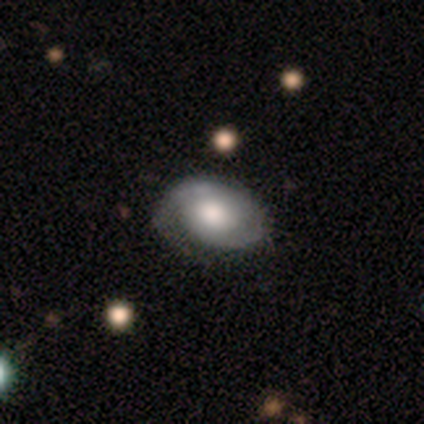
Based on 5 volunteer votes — A featured or disk galaxy (60%) with no bar (67%), tight (67%) spiral arms (100%) and a large central bulge (67%). Merging: none (60%).